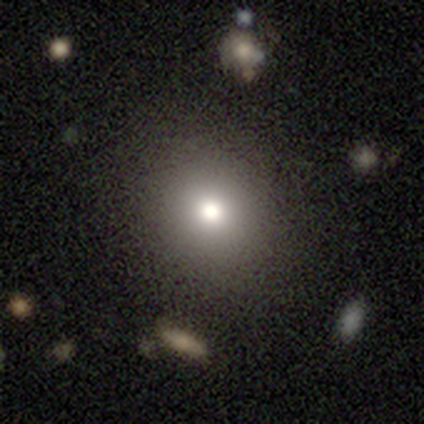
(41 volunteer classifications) A smooth galaxy with no disk features (63%) that is round (85%).

Vote fractions:
- Smooth or featured? smooth: 63% / star or artifact: 20% / featured or disk: 17%
- How rounded? round: 85% / in between: 15% / cigar-shaped: 0%
- Merging? none: 82% / major disturbance: 9% / minor disturbance: 6% / merger: 3%